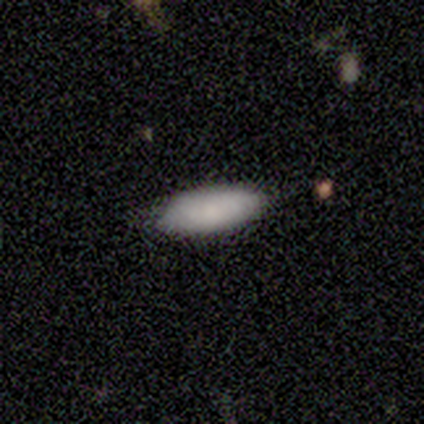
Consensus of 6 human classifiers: A smooth galaxy with no disk features (100%) that is in between round and cigar-shaped (50%, tied with cigar-shaped).

Vote fractions:
- Smooth or featured? smooth: 100% / featured or disk: 0% / star or artifact: 0%
- How rounded? in between: 50% (tied) / cigar-shaped: 50% (tied) / round: 0%
- Merging? none: 83% / minor disturbance: 17% / major disturbance: 0% / merger: 0%